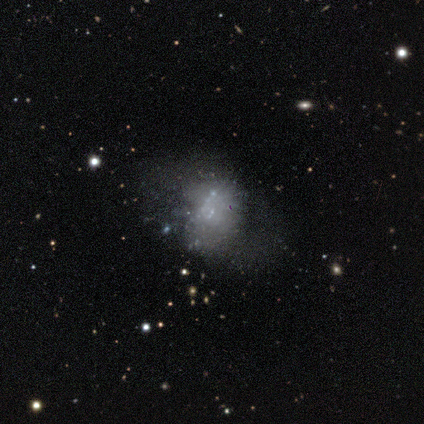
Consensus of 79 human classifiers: featured or disk 58%, smooth 30%, star or artifact 11%. Down the decision tree: edge-on disk — no (100%); bar — no (91%); spiral arms — no (91%); bulge size — none (74%); merging — none (16%, tied with minor disturbance).